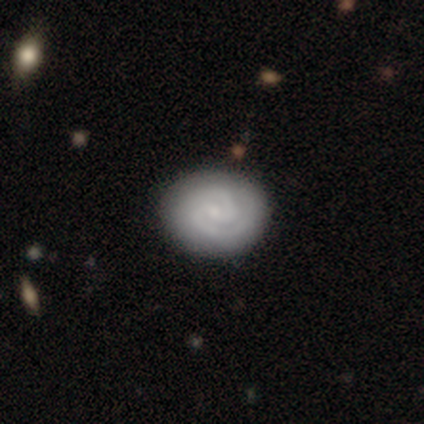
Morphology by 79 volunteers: Q: Smooth or featured?
A: featured or disk (77%); runner-up: smooth (20%)
Q: Edge-on disk?
A: no (98%); runner-up: yes (2%)
Q: Bar?
A: no (63%); runner-up: weak (32%)
Q: Spiral arms?
A: yes (97%); runner-up: no (3%)
Q: Spiral winding?
A: tight (62%); runner-up: medium (33%)
Q: Spiral arm count?
A: 2 (81%); runner-up: can't tell (10%)
Q: Bulge size?
A: small (65%); runner-up: none (23%)
Q: Merging?
A: none (45%); runner-up: minor disturbance (6%)